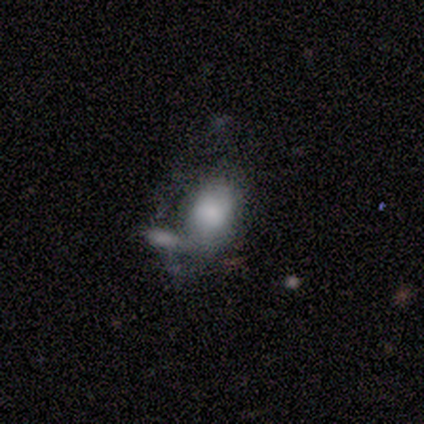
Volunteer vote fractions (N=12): Q: Smooth or featured?
A: smooth (67%); runner-up: featured or disk (33%)
Q: How rounded?
A: in between (88%); runner-up: round (12%)
Q: Merging?
A: major disturbance (50%); runner-up: none (25%)